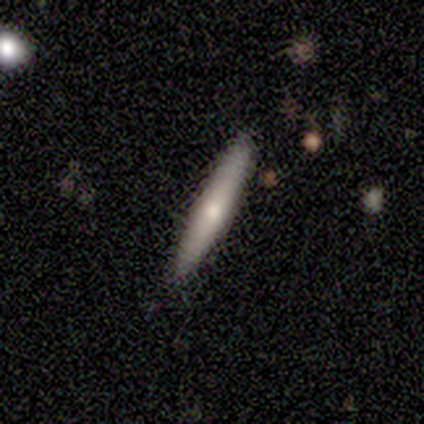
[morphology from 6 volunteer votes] Smooth or featured? smooth (67%)
How rounded? cigar-shaped (75%)
Merging? none (100%)